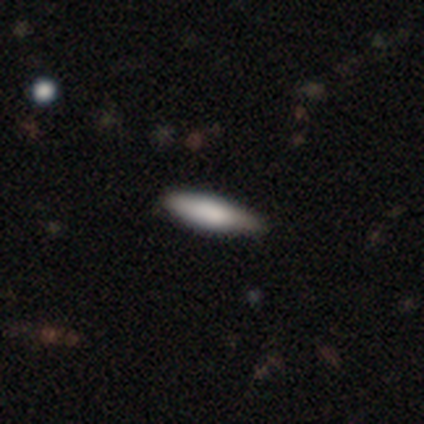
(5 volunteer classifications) Smooth or featured? smooth (80%)
How rounded? in between (50%, tied with cigar-shaped)
Merging? none (100%)